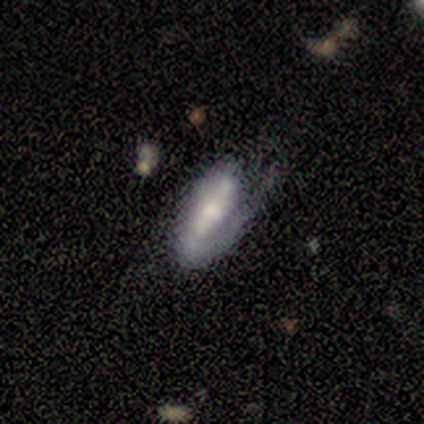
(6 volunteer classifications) featured or disk 83%, smooth 17%, star or artifact 0%. Down the decision tree: edge-on disk — no (60%); bar — strong (67%); spiral arms — yes (100%); spiral arm count — 1 (67%); spiral winding — loose (67%); bulge size — large (33%, tied with moderate and small); merging — none (50%).